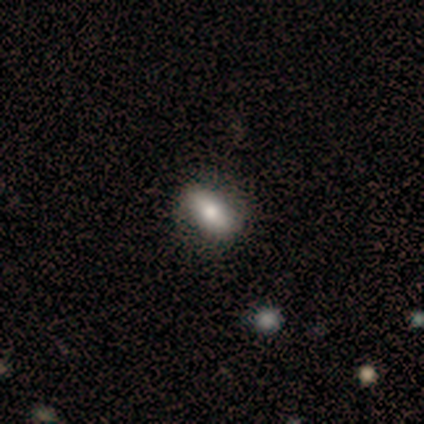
Q: Smooth or featured?
A: smooth (80%); runner-up: featured or disk (20%)
Q: How rounded?
A: in between (50%); tied with: cigar-shaped (50%)
Q: Merging?
A: none (40%); tied with: minor disturbance (40%)